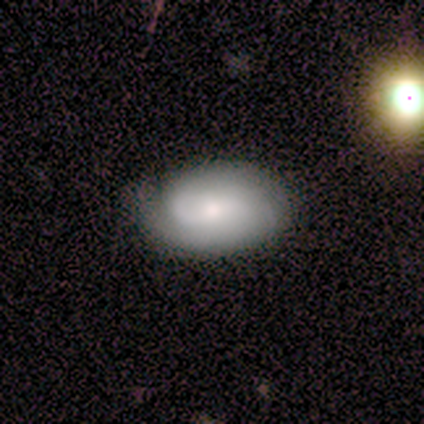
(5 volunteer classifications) Smooth or featured? 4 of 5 (80%) said featured or disk. Edge-on disk? 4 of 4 (100%) said no. Bar? 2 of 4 (50%, tied with no) said strong. Spiral arms? 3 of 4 (75%) said yes. Spiral winding? 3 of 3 (100%) said tight. Spiral arm count? 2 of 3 (67%) said 2. Bulge size? 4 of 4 (100%) said small. Merging? 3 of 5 (60%) said none.